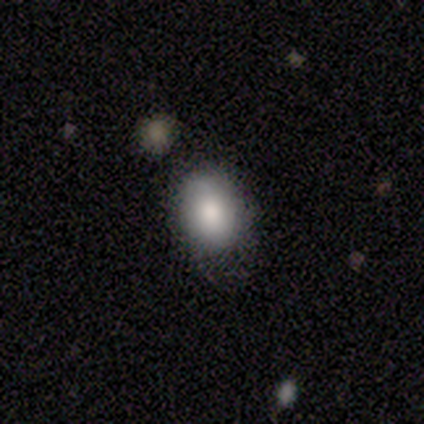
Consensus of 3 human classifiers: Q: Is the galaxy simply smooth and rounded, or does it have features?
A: smooth — 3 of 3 (100%).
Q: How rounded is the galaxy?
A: in between — 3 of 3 (100%).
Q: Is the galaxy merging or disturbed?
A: none — 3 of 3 (100%).